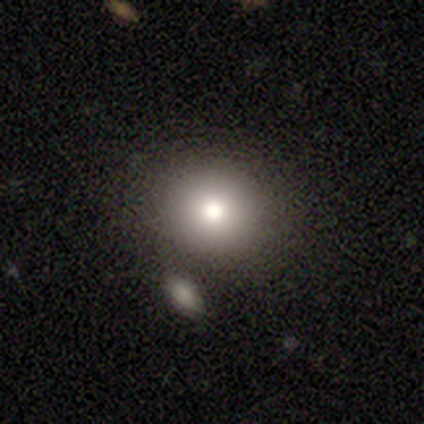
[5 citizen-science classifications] Smooth or featured? smooth (100%)
How rounded? round (80%)
Merging? none (80%)